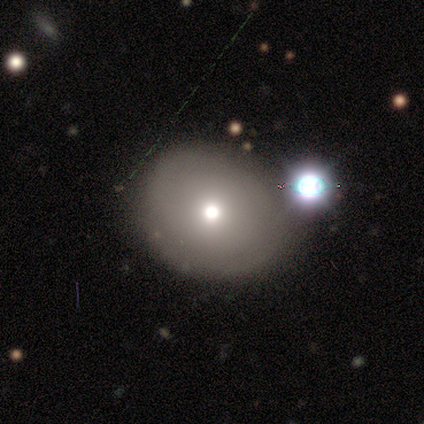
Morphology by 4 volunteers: Q: Smooth or featured?
A: smooth (50%); runner-up: featured or disk (25%)
Q: How rounded?
A: round (50%); tied with: in between (50%)
Q: Merging?
A: none (67%); runner-up: merger (33%)